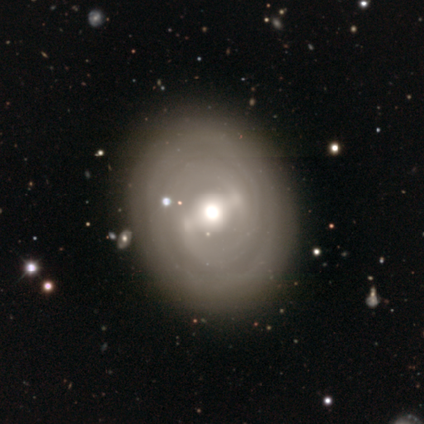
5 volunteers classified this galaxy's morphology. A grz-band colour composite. It shows a featured or disk galaxy (100%) with a strong bar (50%, tied with weak), 2 (50%, tied with can't tell) tight (75%) spiral arms (100%) and a large central bulge (50%, tied with moderate). Merging: none (100%).